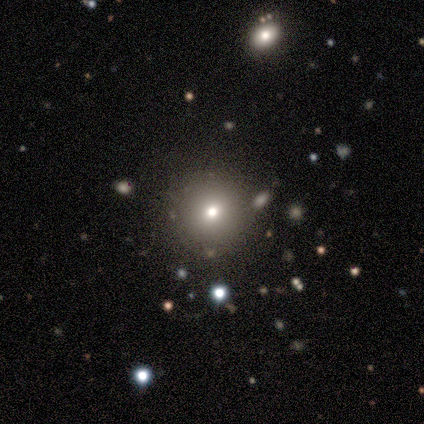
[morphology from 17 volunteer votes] This is likely a smooth galaxy (65%). How rounded: clearly round (100%). Merging: clearly none (87%).